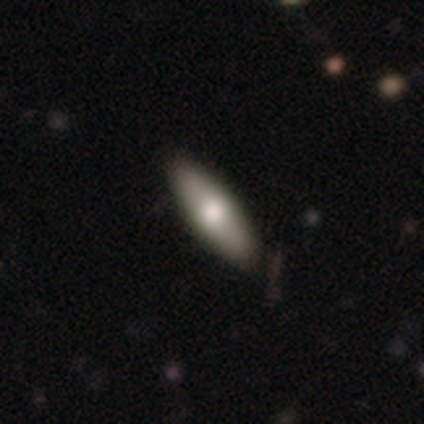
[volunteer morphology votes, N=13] Smooth or featured? smooth (77%)
How rounded? cigar-shaped (60%)
Merging? none (92%)